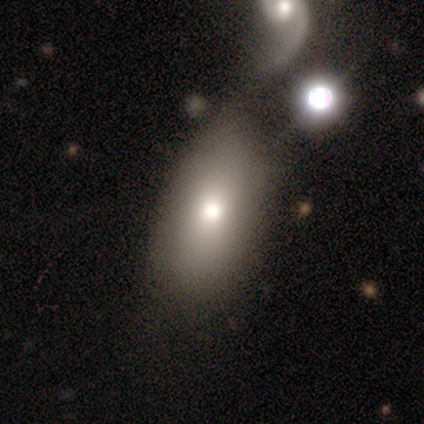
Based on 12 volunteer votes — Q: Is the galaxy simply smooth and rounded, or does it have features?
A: smooth — 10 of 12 (83%).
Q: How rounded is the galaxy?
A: in between — 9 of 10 (90%).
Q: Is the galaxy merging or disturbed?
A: none — 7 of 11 (64%).